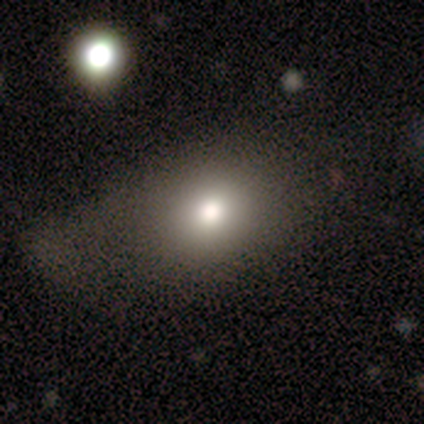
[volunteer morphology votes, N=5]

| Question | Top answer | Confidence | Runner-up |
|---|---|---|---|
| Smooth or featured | smooth | 80% | featured or disk (20%) |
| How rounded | round | 50% | tied: in between (50%) |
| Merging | major disturbance | 100% | — |